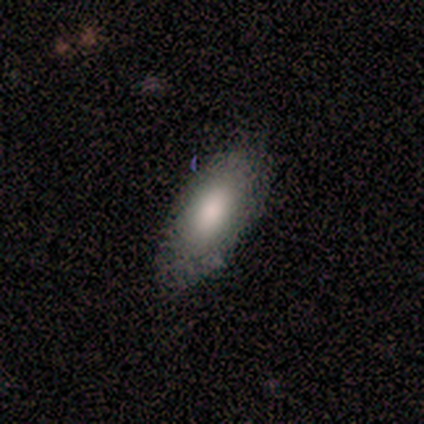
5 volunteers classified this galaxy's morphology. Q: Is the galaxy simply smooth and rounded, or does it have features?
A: smooth — 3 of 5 (60%).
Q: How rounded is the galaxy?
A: in between — 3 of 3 (100%).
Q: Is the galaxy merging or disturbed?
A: none — 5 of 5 (100%).